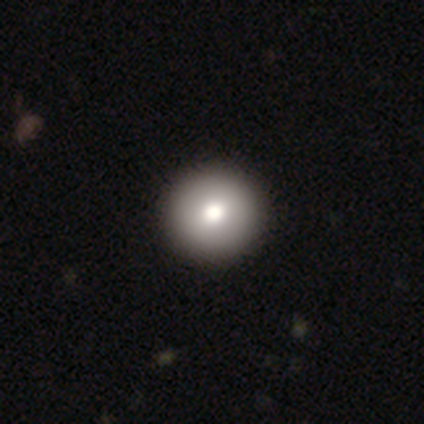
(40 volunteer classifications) smooth 75%, featured or disk 15%, star or artifact 10%. Down the decision tree: how rounded — round (97%); merging — none (58%).